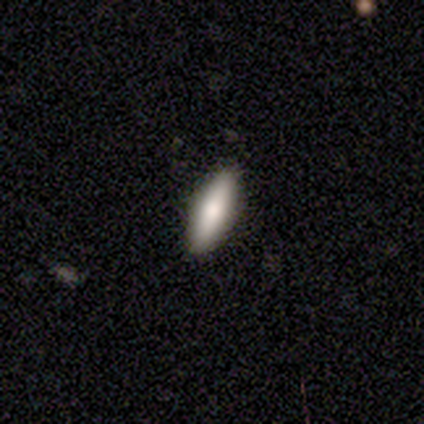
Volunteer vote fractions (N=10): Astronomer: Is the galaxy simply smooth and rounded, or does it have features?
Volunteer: smooth — 90%.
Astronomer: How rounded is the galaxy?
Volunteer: cigar-shaped — 56% (runner-up: in between, 44%).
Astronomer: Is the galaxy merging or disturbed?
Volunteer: none — 90%.